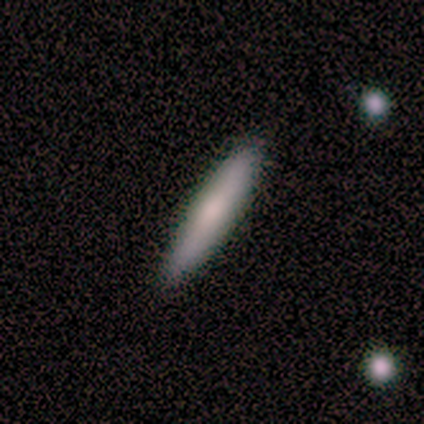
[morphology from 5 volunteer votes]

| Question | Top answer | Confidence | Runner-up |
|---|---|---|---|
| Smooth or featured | featured or disk | 60% | smooth (40%) |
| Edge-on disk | yes | 67% | no (33%) |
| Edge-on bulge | boxy | 100% | — |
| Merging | none | 100% | — |